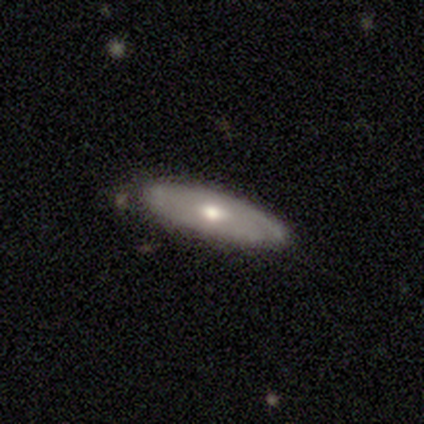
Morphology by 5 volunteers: Smooth or featured?
  - smooth: 60% *
  - featured or disk: 40%
  - star or artifact: 0%
How rounded?
  - in between: 67% *
  - cigar-shaped: 33%
  - round: 0%
Merging?
  - none: 60% *
  - minor disturbance: 40%
  - major disturbance: 0%
  - merger: 0%